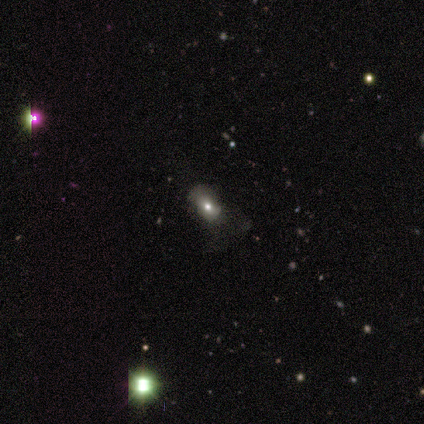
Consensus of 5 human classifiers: Overall: smooth (60%; star or artifact 40%). How rounded: in between (100%). Merging: minor disturbance (67%; none 33%).